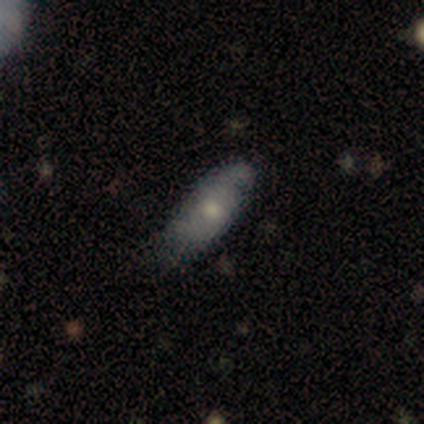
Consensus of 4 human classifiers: Smooth or featured: smooth — 75% (featured or disk — 25%)
How rounded: in between — 67% (cigar-shaped — 33%)
Merging: none — 50% (tied with minor disturbance — 50%)